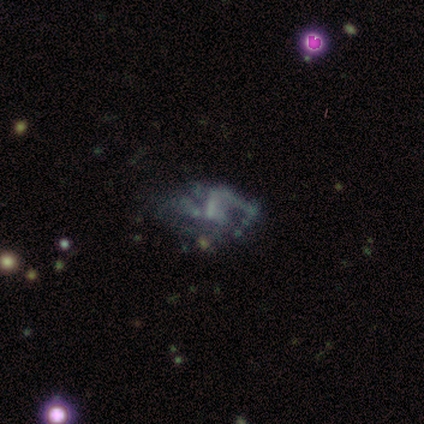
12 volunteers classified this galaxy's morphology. A featured or disk galaxy (58%) with no bar (57%), no spiral arms (86%) and no central bulge (71%). Merging: major disturbance (50%).